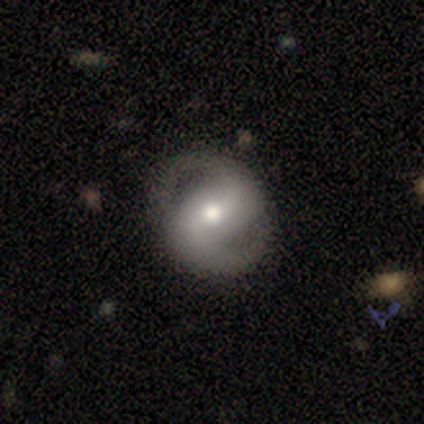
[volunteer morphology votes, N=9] Q: Smooth or featured?
A: featured or disk (67%); runner-up: smooth (33%)
Q: Edge-on disk?
A: no (67%); runner-up: yes (33%)
Q: Bar?
A: strong (50%); tied with: weak (50%)
Q: Spiral arms?
A: yes (100%)
Q: Spiral winding?
A: medium (75%); runner-up: loose (25%)
Q: Spiral arm count?
A: 2 (100%)
Q: Bulge size?
A: moderate (100%)
Q: Merging?
A: none (67%); runner-up: major disturbance (33%)